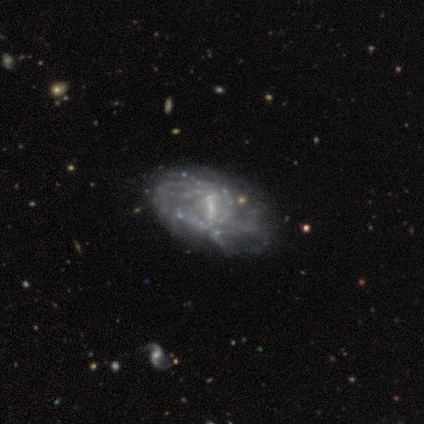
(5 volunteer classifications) smooth_or_featured: featured or disk (p=1.00)
disk_edge_on: no (p=1.00)
bar: strong (p=0.40) [tied with: weak p=0.40]
has_spiral_arms: yes (p=1.00)
spiral_winding: medium (p=0.40) [tied with: loose p=0.40]
spiral_arm_count: can't tell (p=1.00)
bulge_size: small (p=0.80) [alt: dominant p=0.20]
merging: none (p=0.60) [alt: minor disturbance p=0.20]